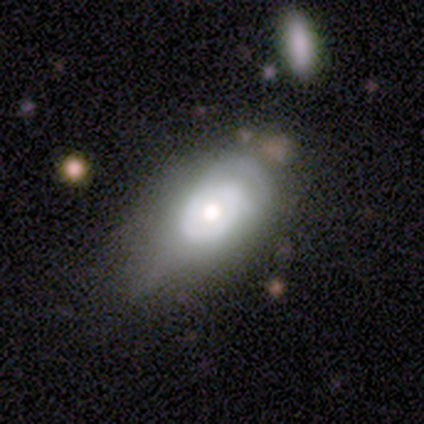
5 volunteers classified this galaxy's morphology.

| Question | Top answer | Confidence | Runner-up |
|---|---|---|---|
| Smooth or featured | featured or disk | 80% | smooth (20%) |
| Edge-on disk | no | 100% | — |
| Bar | no | 100% | — |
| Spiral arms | no | 100% | — |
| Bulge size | moderate | 100% | — |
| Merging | minor disturbance | 60% | major disturbance (40%) |